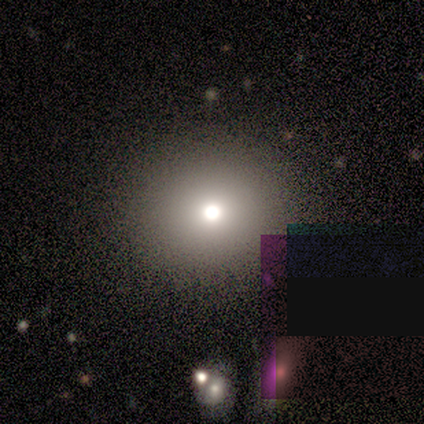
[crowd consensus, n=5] This appears to be a smooth galaxy with no disk features (60%) that is round (100%). Merging: none (67%).